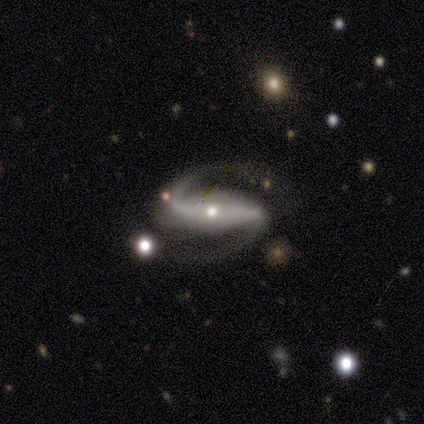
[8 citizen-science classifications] A featured or disk galaxy (100%) with a strong bar (75%), 2 (100%) medium (75%) spiral arms (100%) and a moderate central bulge (50%, tied with small).

Vote fractions:
- Smooth or featured? featured or disk: 100% / smooth: 0% / star or artifact: 0%
- Edge-on disk? no: 100% / yes: 0%
- Bar? strong: 75% / weak: 25% / no: 0%
- Spiral arms? yes: 100% / no: 0%
- Spiral winding? medium: 75% / loose: 25% / tight: 0%
- Spiral arm count? 2: 100% / 1: 0% / 3: 0% / 4: 0% / more than 4: 0% / can't tell: 0%
- Bulge size? moderate: 50% (tied) / small: 50% (tied) / dominant: 0% / large: 0% / none: 0%
- Merging? none: 75% / major disturbance: 25% / minor disturbance: 0% / merger: 0%